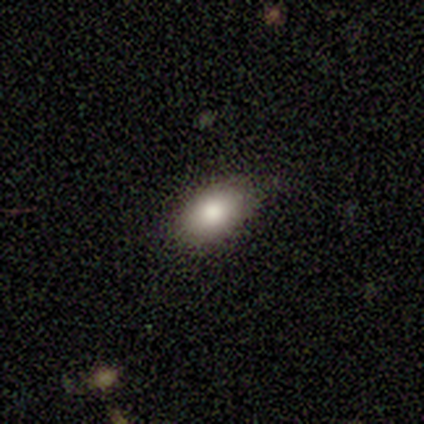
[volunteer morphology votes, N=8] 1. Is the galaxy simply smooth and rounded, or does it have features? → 100% smooth, 0% featured or disk, 0% star or artifact.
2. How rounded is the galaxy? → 88% in between, 12% round, 0% cigar-shaped.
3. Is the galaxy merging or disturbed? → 62% none, 38% minor disturbance, 0% major disturbance, 0% merger.